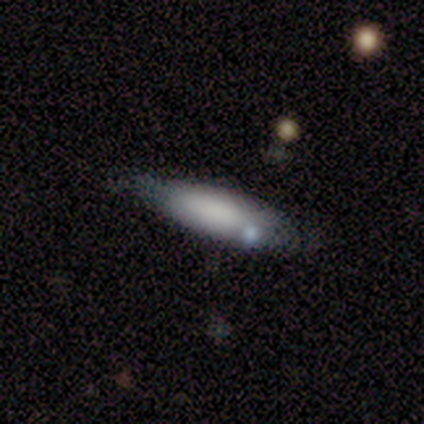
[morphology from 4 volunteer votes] Smooth or featured? smooth (75%)
How rounded? in between (67%)
Merging? none (100%)